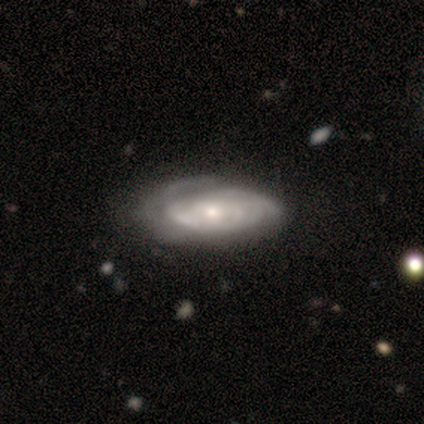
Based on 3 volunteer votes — Q: Smooth or featured?
A: smooth (67%); runner-up: featured or disk (33%)
Q: How rounded?
A: in between (100%)
Q: Merging?
A: minor disturbance (67%); runner-up: none (33%)